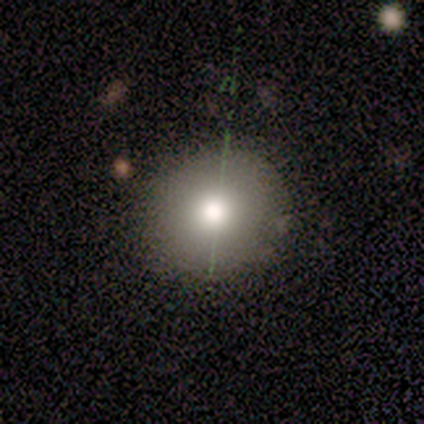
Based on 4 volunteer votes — Smooth or featured? smooth (75%)
How rounded? round (100%)
Merging? none (100%)